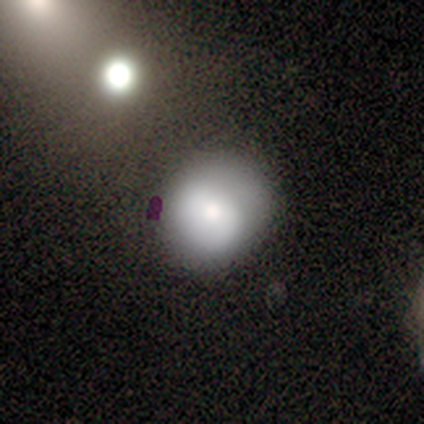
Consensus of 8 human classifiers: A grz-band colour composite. It shows a smooth galaxy with no disk features (75%) that is round (67%). Merging: none (62%).